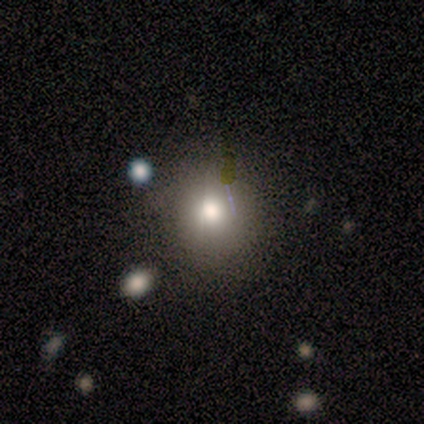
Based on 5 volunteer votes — Volunteers were most divided on "how rounded": round: 80%, in between: 20%, cigar-shaped: 0%. More confident: smooth or featured — smooth (100%); merging — none (80%).